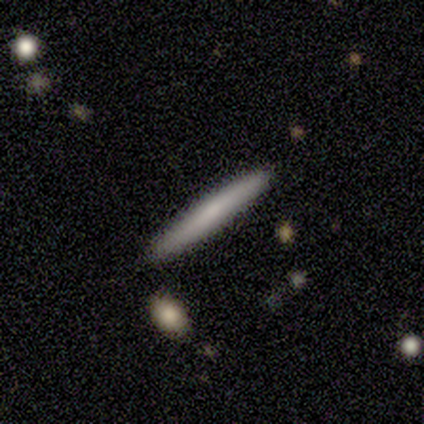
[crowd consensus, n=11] Volunteers were most divided on "smooth or featured": smooth: 73%, featured or disk: 27%, star or artifact: 0%. More confident: how rounded — cigar-shaped (100%); merging — none (91%).